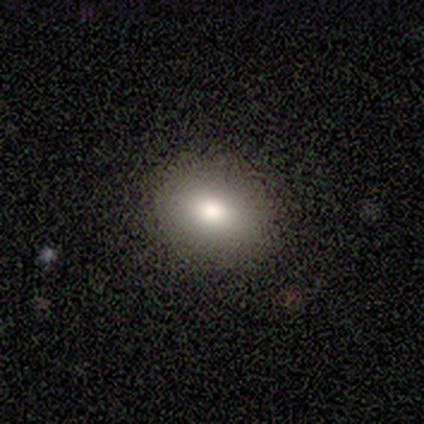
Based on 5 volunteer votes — Overall: smooth (60%; star or artifact 40%). How rounded: in between (67%; round 33%). Merging: none (67%; minor disturbance 33%).